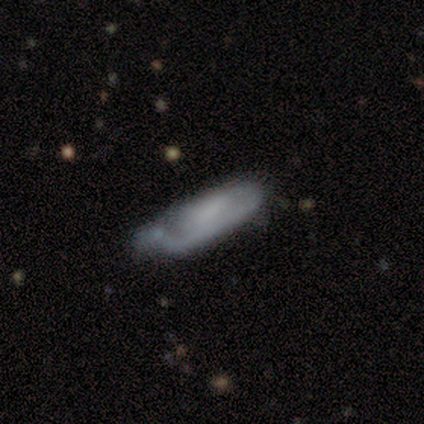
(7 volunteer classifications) Q: Smooth or featured?
A: smooth (71%); runner-up: featured or disk (29%)
Q: How rounded?
A: in between (60%); runner-up: round (20%)
Q: Merging?
A: none (57%); runner-up: minor disturbance (29%)